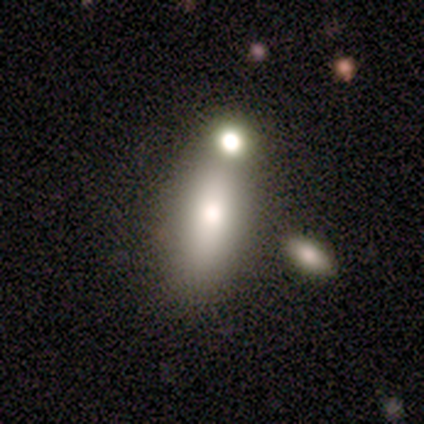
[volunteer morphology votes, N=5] Volunteers were most divided on "how rounded" (2-way tie): in between: 50%, cigar-shaped: 50%, round: 0%. More confident: smooth or featured — smooth (80%); merging — none (75%).